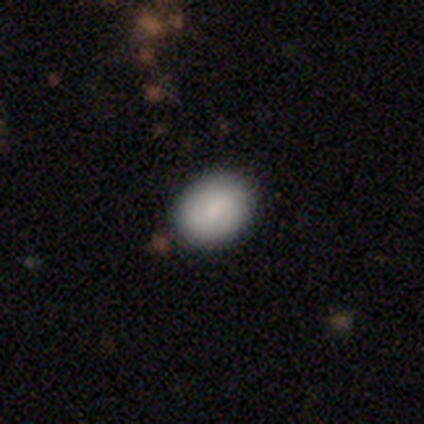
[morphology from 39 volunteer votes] Volunteers were most divided on "how rounded": in between: 60%, round: 40%, cigar-shaped: 0%. More confident: smooth or featured — smooth (90%); merging — none (86%).